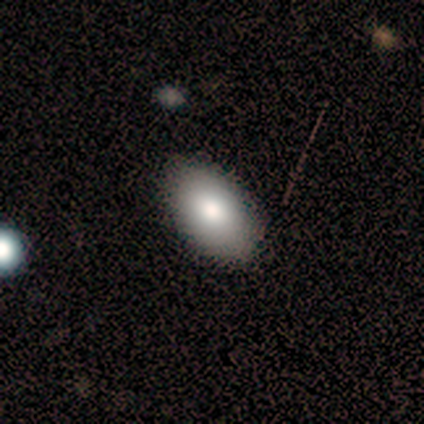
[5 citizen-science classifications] This is likely a smooth galaxy (60%). How rounded: clearly in between (100%). Merging: clearly none (100%).